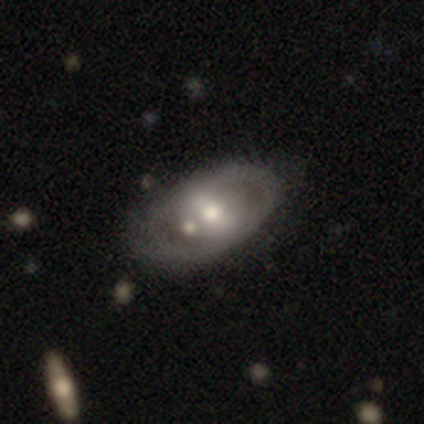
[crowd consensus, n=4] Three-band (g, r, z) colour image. It shows a featured or disk galaxy (100%) with a strong bar (100%), 2 (100%) tight (67%) spiral arms (75%) and a moderate central bulge (100%). Merging: minor disturbance (50%, tied with merger).